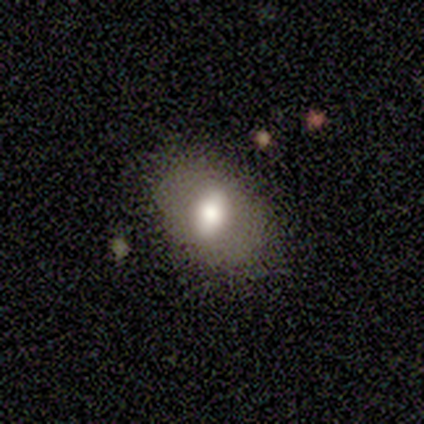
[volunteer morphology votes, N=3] Smooth or featured? smooth (33%, tied with featured or disk and star or artifact)
How rounded? in between (100%)
Merging? none (100%)